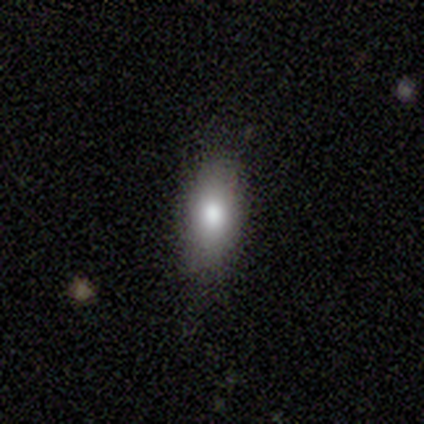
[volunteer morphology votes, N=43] Smooth or featured? smooth (77%)
How rounded? in between (88%)
Merging? none (78%)